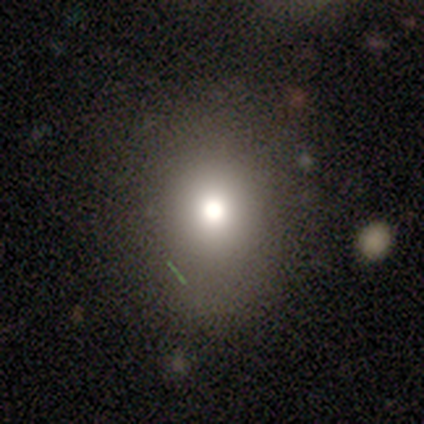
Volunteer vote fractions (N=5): Morphology: type=smooth (80%); roundness=round (75%); merging=none (80%).